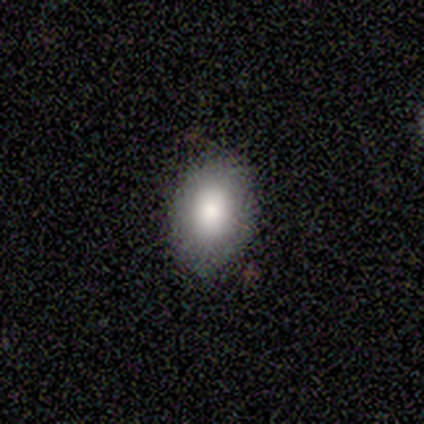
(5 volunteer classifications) Smooth or featured?
  - smooth: 80% *
  - star or artifact: 20%
  - featured or disk: 0%
How rounded?
  - in between: 100% *
  - round: 0%
  - cigar-shaped: 0%
Merging?
  - minor disturbance: 75% *
  - none: 25%
  - major disturbance: 0%
  - merger: 0%